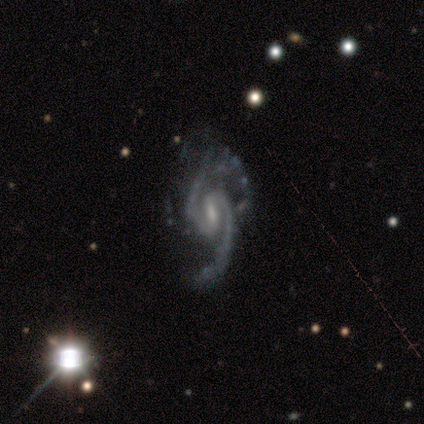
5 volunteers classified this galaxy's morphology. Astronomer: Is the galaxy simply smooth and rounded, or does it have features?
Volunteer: featured or disk — 100%.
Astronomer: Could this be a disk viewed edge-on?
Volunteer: no — 100%.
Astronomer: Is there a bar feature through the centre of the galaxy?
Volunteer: weak — 80%.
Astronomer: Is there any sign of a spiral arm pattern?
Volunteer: yes — 100%.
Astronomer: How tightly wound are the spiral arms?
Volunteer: loose — 60%.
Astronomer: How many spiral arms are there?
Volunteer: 2 — 100%.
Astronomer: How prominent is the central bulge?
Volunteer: moderate — 60%.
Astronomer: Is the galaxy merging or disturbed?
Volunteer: none — 40%, tied with major disturbance at 40%.